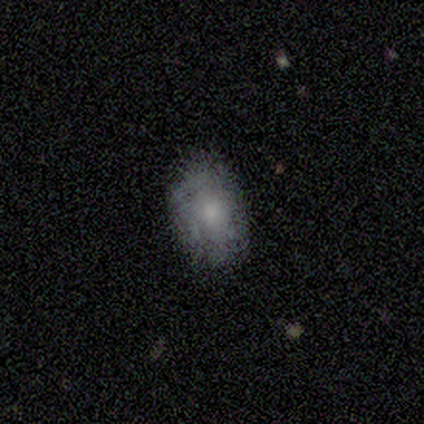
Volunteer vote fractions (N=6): Smooth or featured? smooth (50%, tied with featured or disk)
How rounded? in between (67%)
Merging? none (67%)